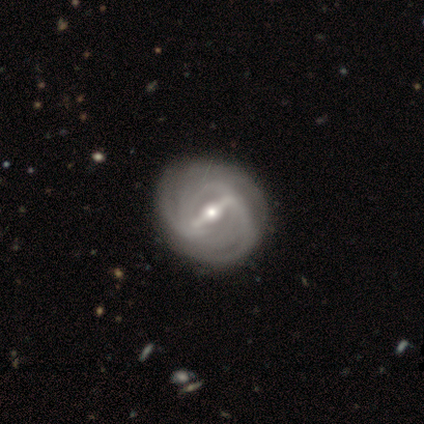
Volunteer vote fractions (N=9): smooth_or_featured: featured or disk (p=1.00)
disk_edge_on: no (p=1.00)
bar: strong (p=0.89) [alt: weak p=0.11]
has_spiral_arms: yes (p=0.89) [alt: no p=0.11]
spiral_winding: tight (p=0.75) [alt: medium p=0.12]
spiral_arm_count: can't tell (p=0.88) [alt: 4 p=0.12]
bulge_size: small (p=0.56) [alt: moderate p=0.44]
merging: none (p=1.00)